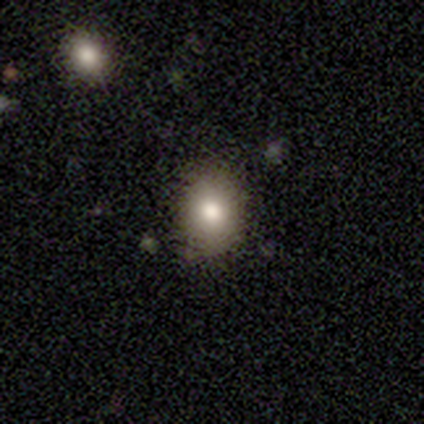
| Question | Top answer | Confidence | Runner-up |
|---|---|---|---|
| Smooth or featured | smooth | 80% | featured or disk (20%) |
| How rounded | in between | 100% | — |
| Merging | none | 80% | minor disturbance (20%) |